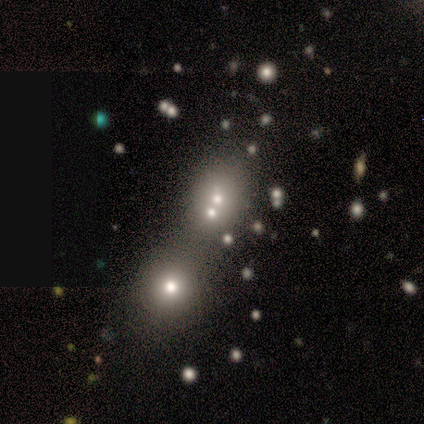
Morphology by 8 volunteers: smooth-or-featured: smooth: 62% | featured or disk: 25% | star or artifact: 12%
  how-rounded: round: 80% | in between: 20% | cigar-shaped: 0%
  merging: merger: 57% | none: 29% | minor disturbance: 14% | major disturbance: 0%